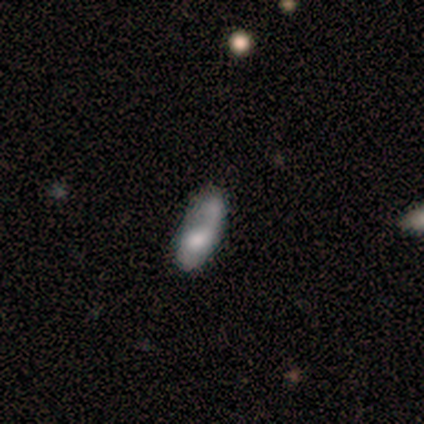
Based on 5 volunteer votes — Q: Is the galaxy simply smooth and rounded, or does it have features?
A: smooth — 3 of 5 (60%).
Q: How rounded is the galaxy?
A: in between — 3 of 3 (100%).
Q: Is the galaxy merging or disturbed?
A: none — 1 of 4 (25%, tied with minor disturbance, major disturbance and merger).